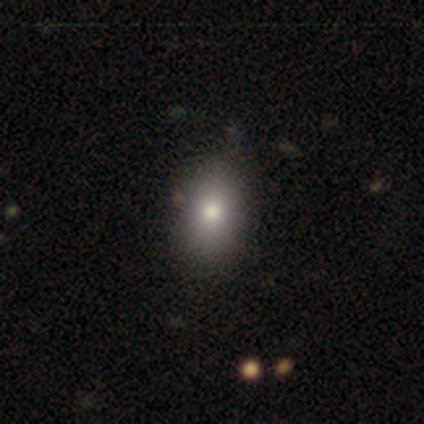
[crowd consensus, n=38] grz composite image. It shows a smooth galaxy with no disk features (74%) that is in between round and cigar-shaped (93%). Merging: none (83%).